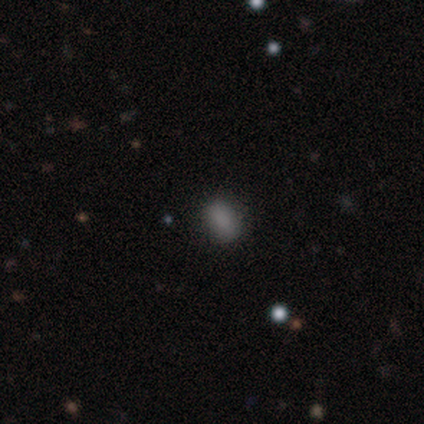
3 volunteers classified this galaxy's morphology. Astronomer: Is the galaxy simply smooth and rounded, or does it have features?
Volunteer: smooth — 67%.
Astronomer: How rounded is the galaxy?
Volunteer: in between — 100%.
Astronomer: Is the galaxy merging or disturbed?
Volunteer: none — 50%, tied with minor disturbance at 50%.